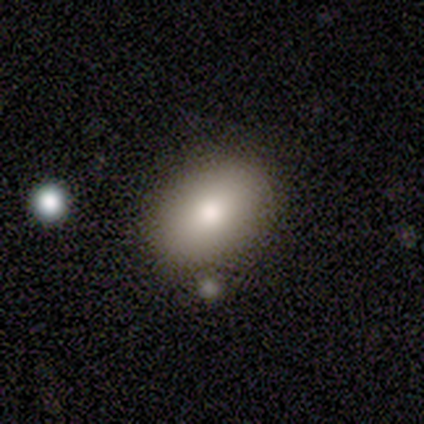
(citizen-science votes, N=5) This is clearly a smooth galaxy (100%). How rounded: clearly in between (100%). Merging: clearly none (100%).